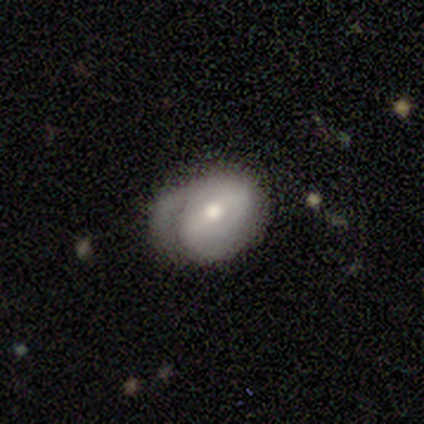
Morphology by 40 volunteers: type=featured or disk (65%); edge-on=no (100%); bar=weak (46%); spiral arms=yes (81%); winding=loose (38%); arm count=2 (33%, tied with can't tell); bulge=moderate (54%); merging=none (41%).